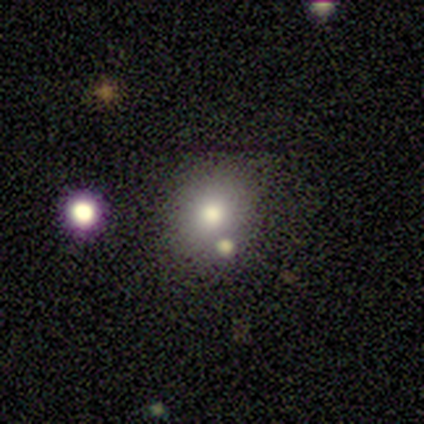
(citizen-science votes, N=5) Smooth or featured: smooth — 40% (tied with featured or disk — 40%)
How rounded: round — 100%
Merging: none — 100%